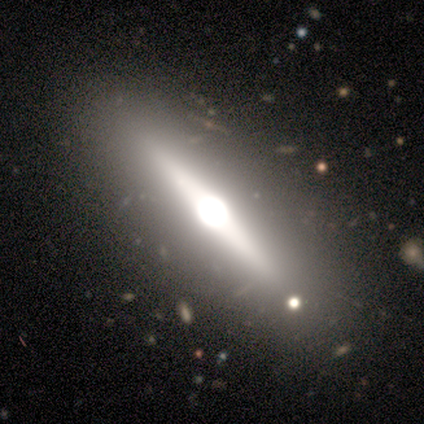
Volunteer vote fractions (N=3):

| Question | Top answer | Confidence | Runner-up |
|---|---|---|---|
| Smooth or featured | featured or disk | 100% | — |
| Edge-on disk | yes | 100% | — |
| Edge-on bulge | rounded | 100% | — |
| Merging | none | 67% | minor disturbance (33%) |